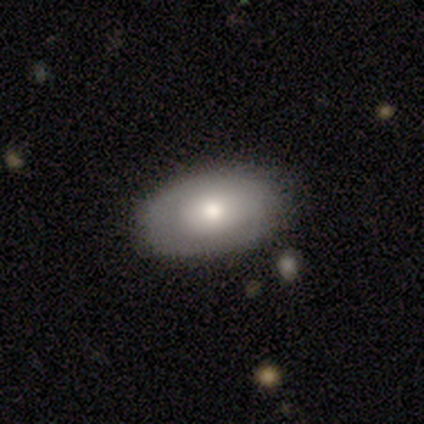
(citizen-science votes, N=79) Smooth or featured? 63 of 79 (80%) said smooth. How rounded? 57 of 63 (90%) said in between. Merging? 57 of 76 (75%) said none.